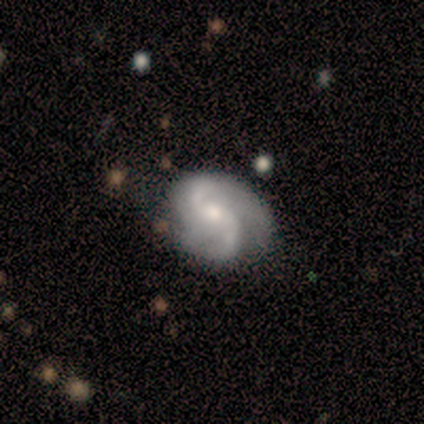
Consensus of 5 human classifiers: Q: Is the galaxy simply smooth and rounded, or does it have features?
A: featured or disk — 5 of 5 (100%).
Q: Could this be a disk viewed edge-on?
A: no — 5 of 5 (100%).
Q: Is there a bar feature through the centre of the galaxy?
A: weak — 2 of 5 (40%, tied with no).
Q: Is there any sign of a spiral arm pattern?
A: yes — 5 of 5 (100%).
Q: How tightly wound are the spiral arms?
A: loose — 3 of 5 (60%).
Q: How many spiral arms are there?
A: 2 — 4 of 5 (80%).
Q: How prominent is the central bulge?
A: small — 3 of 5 (60%).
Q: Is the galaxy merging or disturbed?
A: none — 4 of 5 (80%).